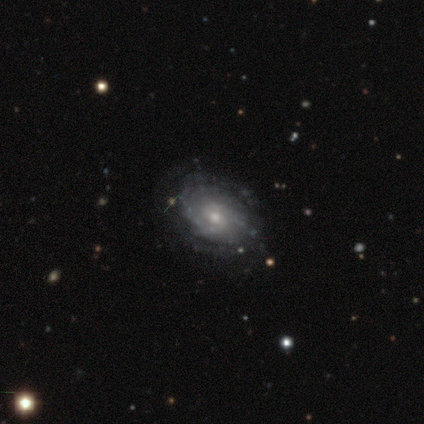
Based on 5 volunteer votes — Morphology: type=featured or disk (80%); edge-on=no (100%); bar=no (50%); spiral arms=yes (75%); winding=tight (100%); arm count=can't tell (100%); bulge=moderate (50%, tied with small); merging=none (75%).